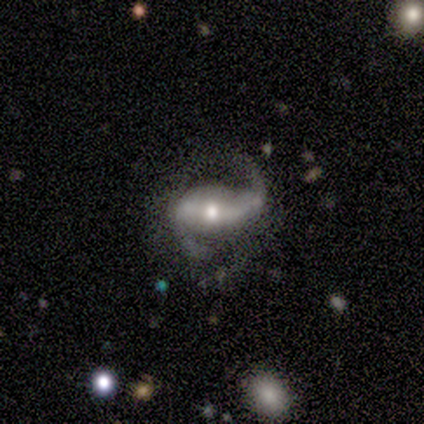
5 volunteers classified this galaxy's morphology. featured or disk 100%, smooth 0%, star or artifact 0%. Down the decision tree: edge-on disk — no (80%); bar — strong (50%, tied with no); spiral arms — yes (100%); spiral arm count — 2 (75%); spiral winding — loose (75%); bulge size — moderate (50%, tied with small); merging — none (60%).